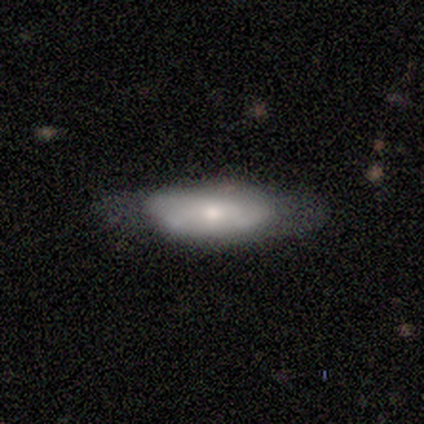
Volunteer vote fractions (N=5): smooth_or_featured: featured or disk (p=0.60) [alt: smooth p=0.40]
disk_edge_on: no (p=1.00)
bar: no (p=1.00)
has_spiral_arms: no (p=0.67) [alt: yes p=0.33]
bulge_size: moderate (p=0.67) [alt: small p=0.33]
merging: none (p=0.80) [alt: minor disturbance p=0.20]